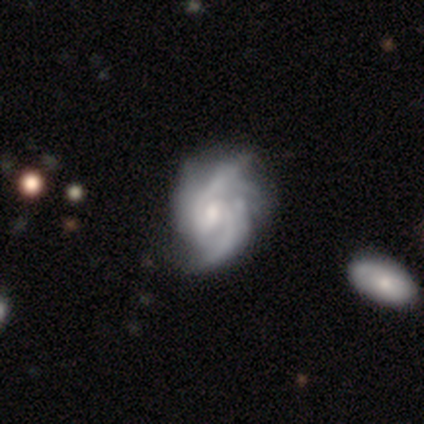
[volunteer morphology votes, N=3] smooth_or_featured: featured or disk (p=0.67) [alt: smooth p=0.33]
disk_edge_on: no (p=1.00)
bar: weak (p=0.50) [tied with: no p=0.50]
has_spiral_arms: yes (p=1.00)
spiral_winding: tight (p=1.00)
spiral_arm_count: can't tell (p=1.00)
bulge_size: moderate (p=1.00)
merging: none (p=0.67) [alt: minor disturbance p=0.33]